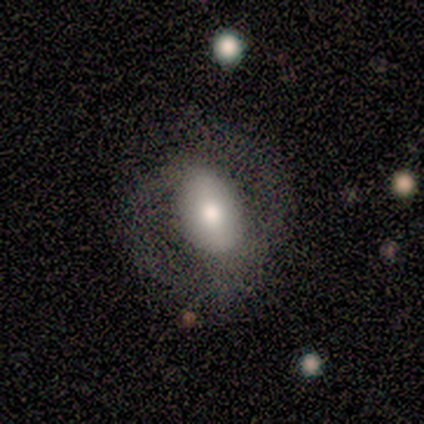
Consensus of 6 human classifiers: This appears to be a smooth galaxy with no disk features (50%, tied with featured or disk) that is in between round and cigar-shaped (67%). Merging: none (83%).